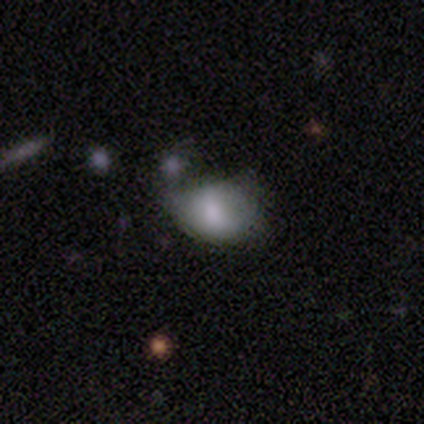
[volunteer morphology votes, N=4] smooth 100%, featured or disk 0%, star or artifact 0%. Down the decision tree: how rounded — round (50%, tied with in between); merging — none (50%, tied with minor disturbance).